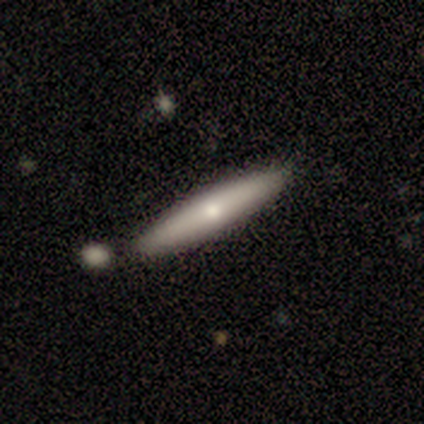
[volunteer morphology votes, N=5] Q: Smooth or featured?
A: smooth (100%)
Q: How rounded?
A: cigar-shaped (100%)
Q: Merging?
A: none (80%); runner-up: minor disturbance (20%)